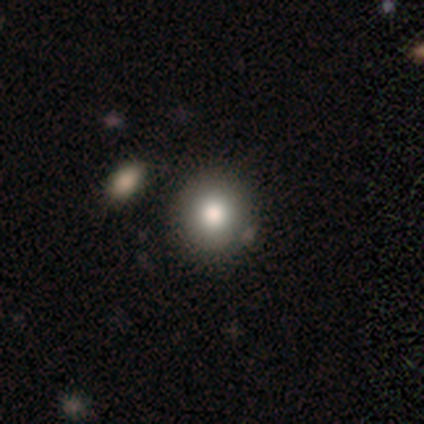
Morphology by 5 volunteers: Overall: smooth (80%). How rounded: round (75%). Merging: none (80%).